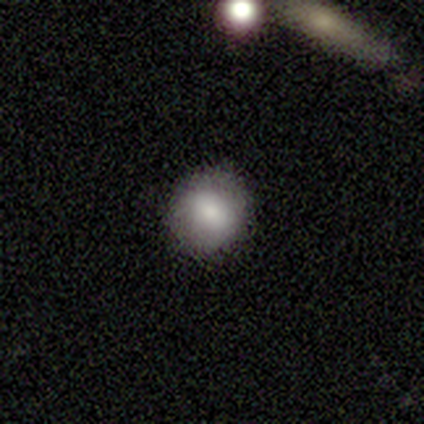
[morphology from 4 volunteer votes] This appears to be a smooth galaxy with no disk features (50%) that is round (100%). Merging: none (100%).